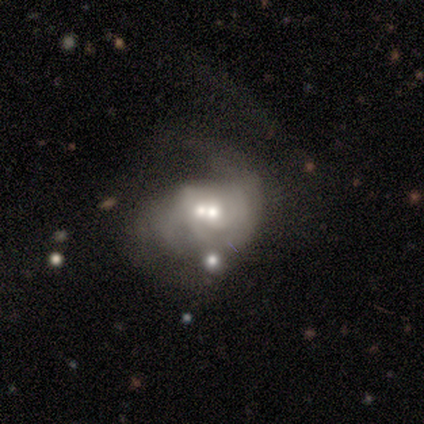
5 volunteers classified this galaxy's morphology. Overall: featured or disk (80%). Edge-on disk: no (75%). Bar: no (100%). Spiral arms: no (67%; yes 33%). Bulge size: moderate (67%; small 33%). Merging: merger (60%; major disturbance 40%).